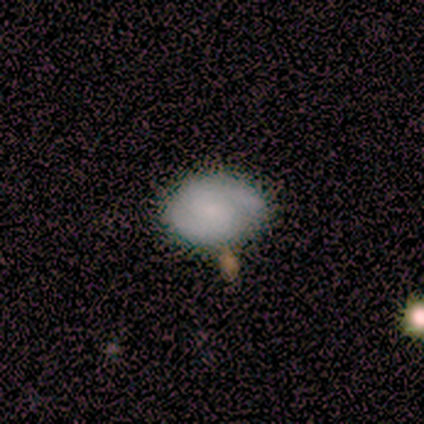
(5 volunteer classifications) A smooth galaxy with no disk features (60%) that is in between round and cigar-shaped (67%).

Vote fractions:
- Smooth or featured? smooth: 60% / featured or disk: 40% / star or artifact: 0%
- How rounded? in between: 67% / round: 33% / cigar-shaped: 0%
- Merging? none: 40% (tied) / minor disturbance: 40% (tied) / merger: 20% / major disturbance: 0%